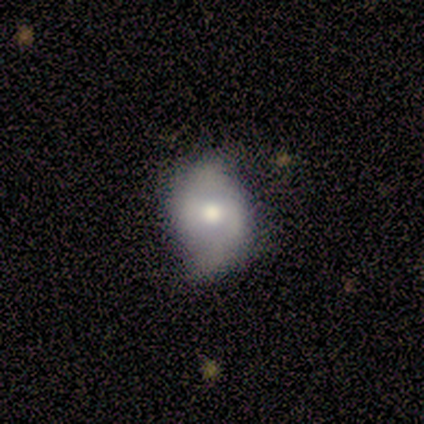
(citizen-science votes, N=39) A featured or disk galaxy (69%) with a weak bar (48%), 2 (75%) loose (46%) spiral arms (96%) and a moderate central bulge (68%). Merging: none (74%).